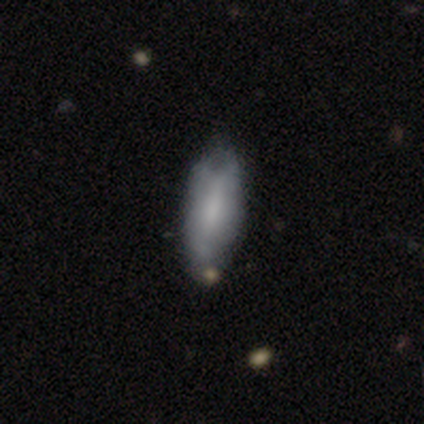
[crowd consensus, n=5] This appears to be a smooth galaxy with no disk features (80%) that is in between round and cigar-shaped (50%, tied with cigar-shaped). Merging: none (50%).